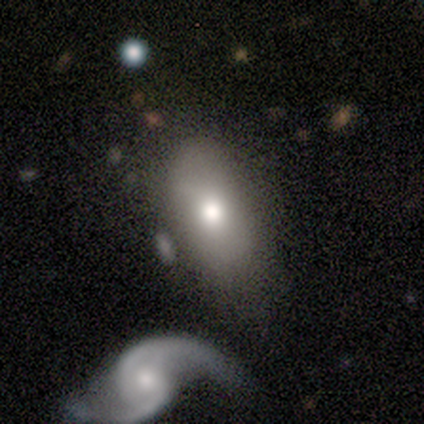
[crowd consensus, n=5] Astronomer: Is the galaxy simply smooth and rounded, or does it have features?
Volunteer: smooth — 100%.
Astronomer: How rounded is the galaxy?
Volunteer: in between — 80%.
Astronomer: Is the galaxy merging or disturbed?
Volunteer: none — 80%.